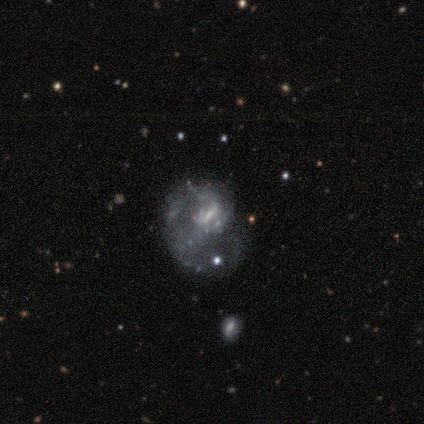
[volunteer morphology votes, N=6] type=featured or disk (50%); edge-on=no (100%); bar=no (67%); spiral arms=no (100%); bulge=none (67%); merging=minor disturbance (60%).